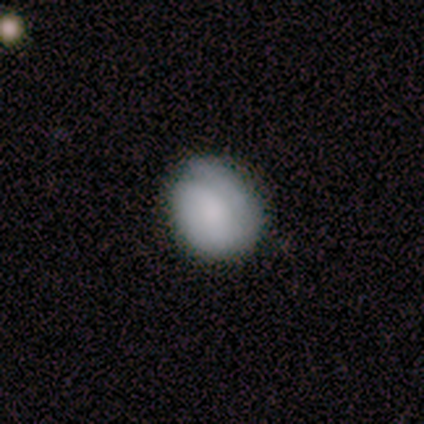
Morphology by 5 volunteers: Smooth or featured? smooth (80%)
How rounded? round (50%, tied with in between)
Merging? none (80%)